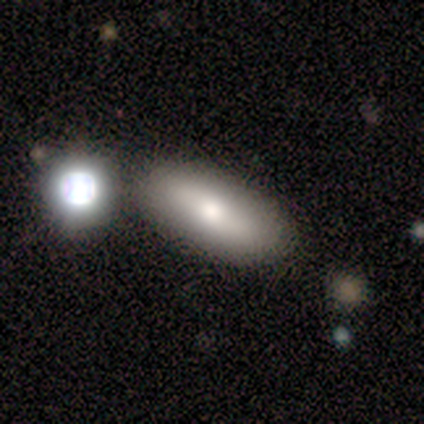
Smooth or featured? 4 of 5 (80%) said smooth. How rounded? 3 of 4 (75%) said in between. Merging? 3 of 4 (75%) said none.